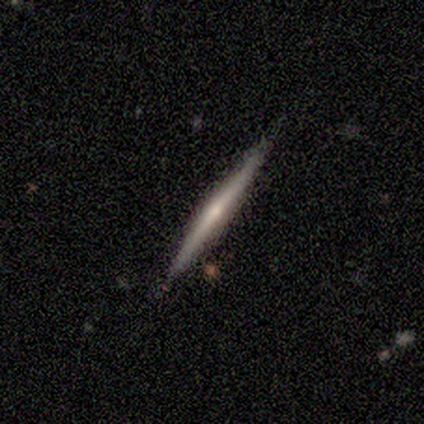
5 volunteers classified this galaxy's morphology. Smooth or featured? 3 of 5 (60%) said featured or disk. Edge-on disk? 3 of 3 (100%) said yes. Edge-on bulge? 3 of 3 (100%) said rounded. Merging? 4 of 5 (80%) said none.